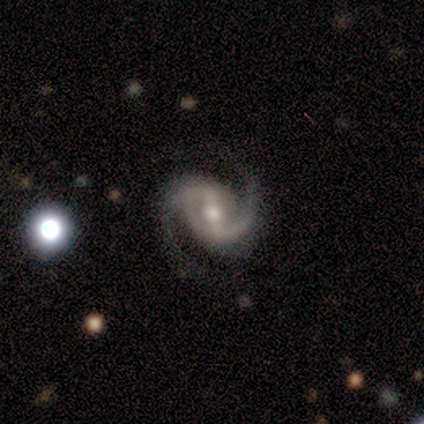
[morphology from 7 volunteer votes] Smooth or featured? featured or disk (100%)
Edge-on disk? no (100%)
Bar? weak (71%)
Spiral arms? yes (100%)
Spiral winding? medium (43%, tied with loose)
Spiral arm count? 2 (100%)
Bulge size? moderate (57%)
Merging? none (86%)